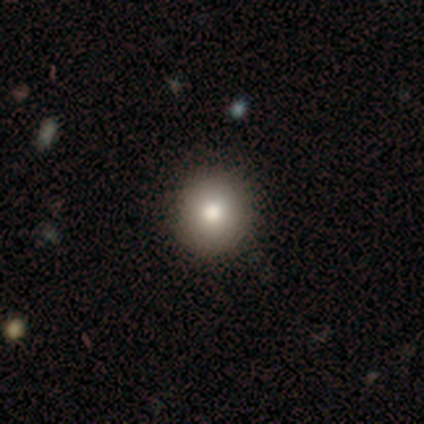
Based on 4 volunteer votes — Smooth or featured? 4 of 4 (100%) said smooth. How rounded? 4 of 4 (100%) said round. Merging? 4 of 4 (100%) said none.